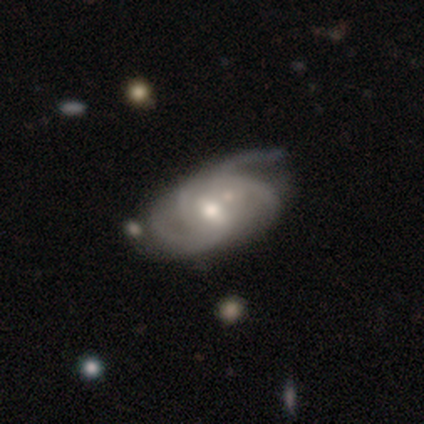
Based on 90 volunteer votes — Volunteers were most divided on "spiral arm count": 3: 33%, 2: 32%, 4: 17%, can't tell: 14%, more than 4: 3%, 1: 1%. Remaining: edge-on disk — no (98%); spiral arms — yes (94%); smooth or featured — featured or disk (92%); bulge size — moderate (70%); bar — weak (63%); merging — none (49%); spiral winding — medium (49%).